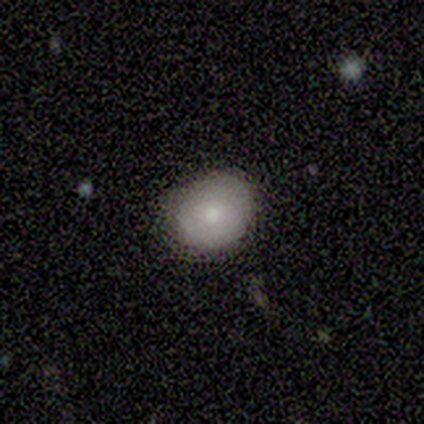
Smooth or featured? 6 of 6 (100%) said smooth. How rounded? 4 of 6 (67%) said round. Merging? 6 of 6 (100%) said none.